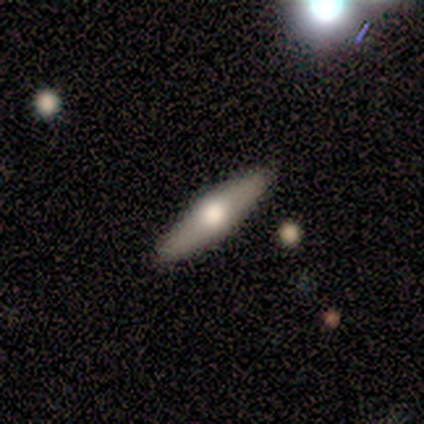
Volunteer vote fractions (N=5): A featured or disk galaxy (80%) viewed edge-on (100%) with a rounded central bulge (75%). Merging: none (80%).